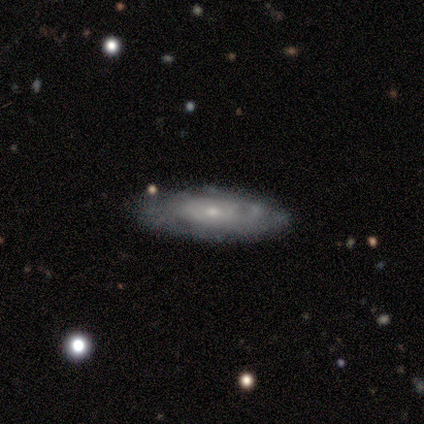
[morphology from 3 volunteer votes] A smooth galaxy with no disk features (33%, tied with featured or disk and star or artifact) that is cigar-shaped (100%). Merging: none (50%, tied with minor disturbance).